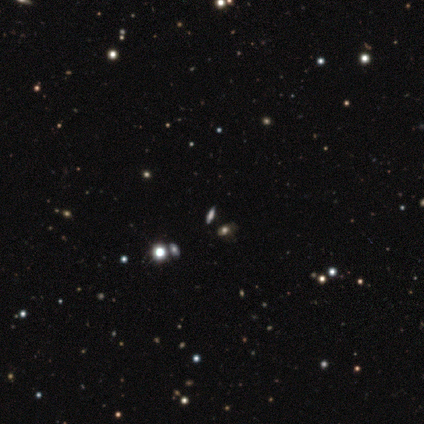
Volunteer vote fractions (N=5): Q: Smooth or featured?
A: star or artifact (60%); runner-up: smooth (40%)